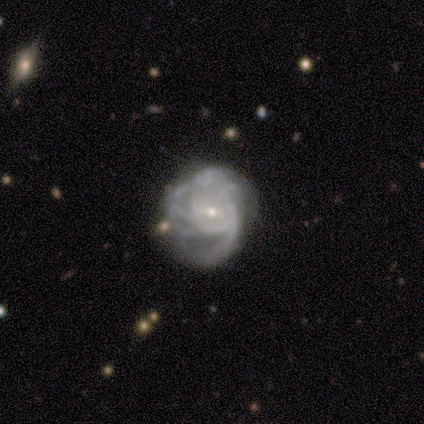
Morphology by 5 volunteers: featured or disk 100%, smooth 0%, star or artifact 0%. Down the decision tree: edge-on disk — no (100%); bar — strong (40%, tied with no); spiral arms — yes (80%); spiral arm count — can't tell (75%); spiral winding — medium (75%); bulge size — small (100%); merging — minor disturbance (60%).